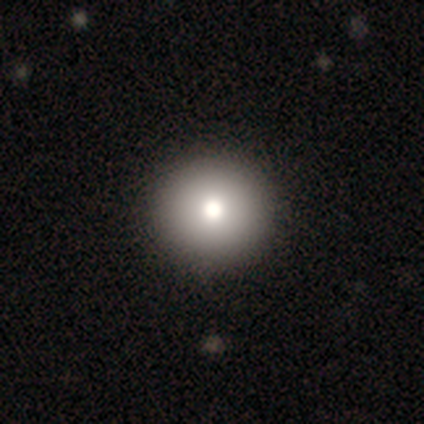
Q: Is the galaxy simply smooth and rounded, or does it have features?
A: smooth — 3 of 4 (75%).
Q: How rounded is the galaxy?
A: round — 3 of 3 (100%).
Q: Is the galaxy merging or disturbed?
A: none — 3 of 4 (75%).